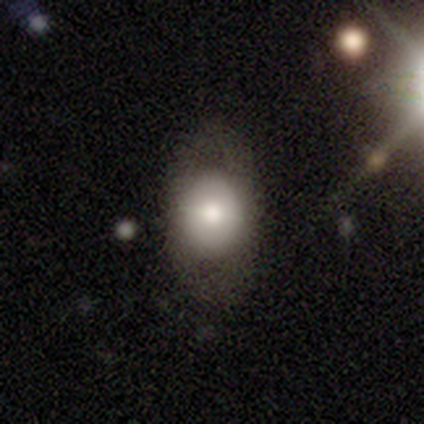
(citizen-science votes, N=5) Volunteers were most divided on "smooth or featured": smooth: 60%, featured or disk: 40%, star or artifact: 0%. More confident: merging — none (80%); how rounded — in between (67%).